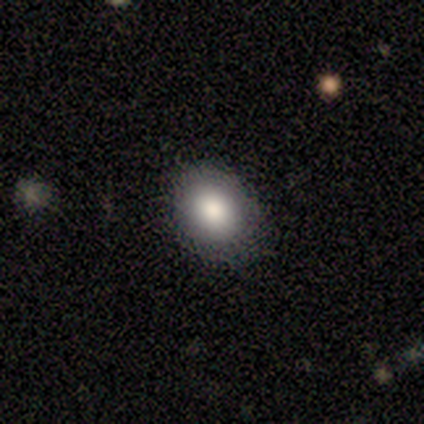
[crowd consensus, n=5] Volunteers were most divided on "merging": none: 60%, minor disturbance: 40%, major disturbance: 0%, merger: 0%. More confident: how rounded — in between (100%); smooth or featured — smooth (80%).